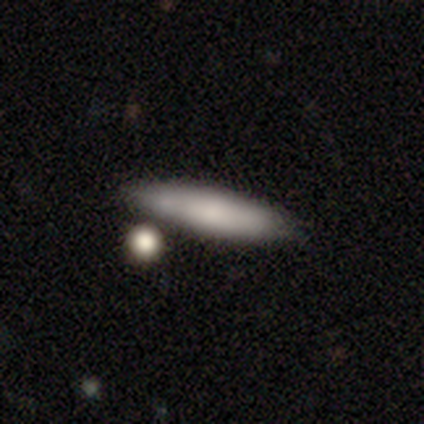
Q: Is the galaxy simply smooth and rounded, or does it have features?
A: smooth — 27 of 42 (64%).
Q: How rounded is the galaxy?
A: cigar-shaped — 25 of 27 (93%).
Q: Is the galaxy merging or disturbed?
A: none — 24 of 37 (65%).